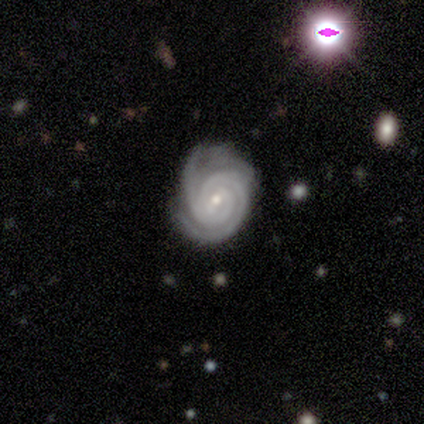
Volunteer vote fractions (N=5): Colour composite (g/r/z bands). It shows a featured or disk galaxy (100%) with a strong bar (40%, tied with no), 2 (60%) tight (80%) spiral arms (100%) and a small central bulge (100%). Merging: none (80%).